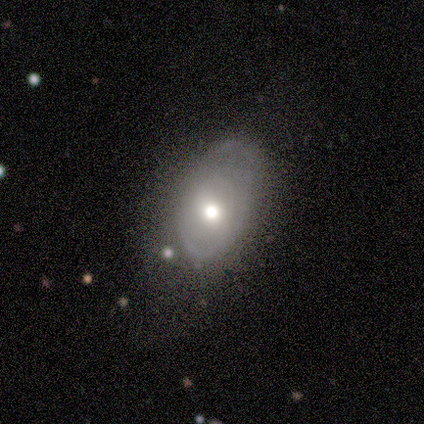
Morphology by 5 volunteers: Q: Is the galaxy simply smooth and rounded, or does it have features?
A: featured or disk — 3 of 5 (60%).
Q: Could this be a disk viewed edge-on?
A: no — 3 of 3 (100%).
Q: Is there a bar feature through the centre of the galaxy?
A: no — 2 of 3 (67%).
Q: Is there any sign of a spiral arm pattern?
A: no — 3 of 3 (100%).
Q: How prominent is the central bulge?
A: moderate — 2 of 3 (67%).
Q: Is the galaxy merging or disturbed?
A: minor disturbance — 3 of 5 (60%).